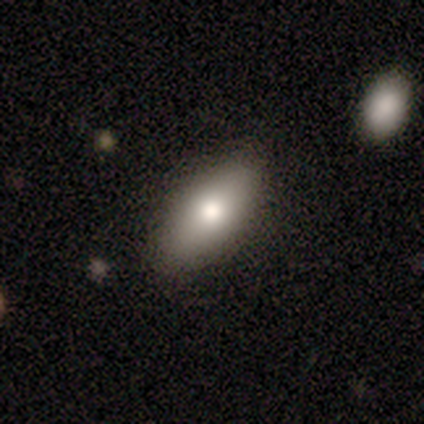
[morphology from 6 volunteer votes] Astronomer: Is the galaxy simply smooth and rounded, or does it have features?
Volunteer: smooth — 67%.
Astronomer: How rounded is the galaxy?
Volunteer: in between — 100%.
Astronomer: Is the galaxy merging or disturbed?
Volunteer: none — 80%.